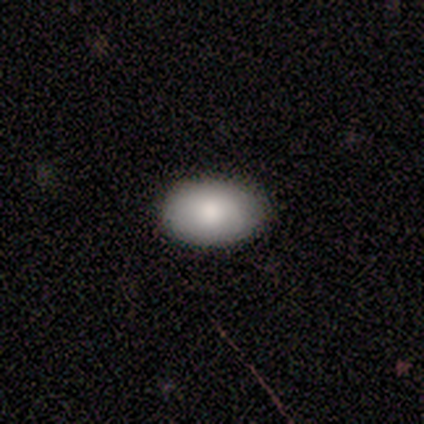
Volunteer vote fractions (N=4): Morphology: type=smooth (100%); roundness=in between (100%); merging=none (75%).